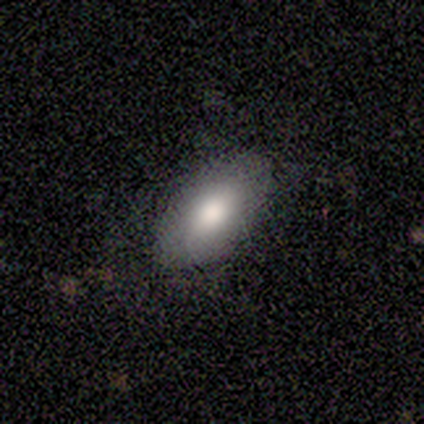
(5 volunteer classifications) Morphology: type=smooth (100%); roundness=in between (100%); merging=none (80%).